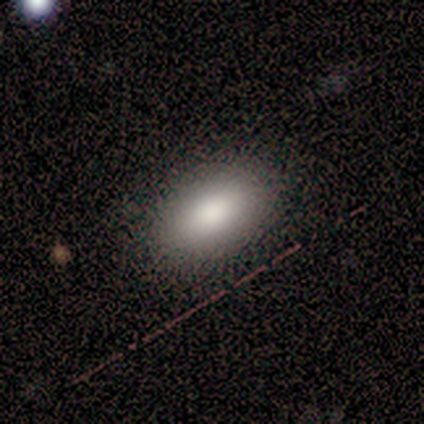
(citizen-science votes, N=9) Volunteers were most divided on "merging": none: 89%, minor disturbance: 11%, major disturbance: 0%, merger: 0%. More confident: smooth or featured — smooth (100%); how rounded — in between (100%).